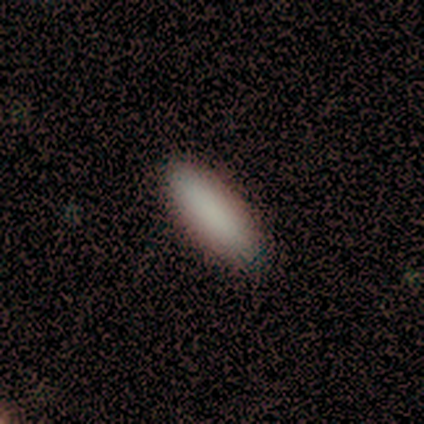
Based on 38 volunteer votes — Smooth or featured? smooth (87%)
How rounded? in between (52%)
Merging? none (81%)